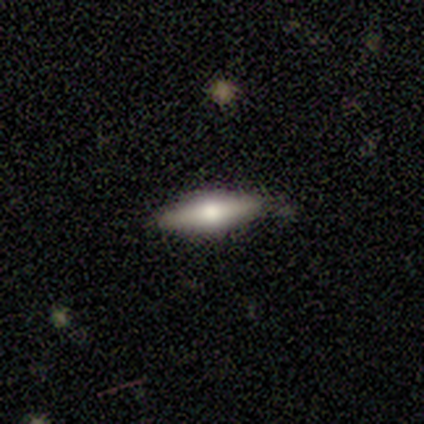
This is likely a smooth galaxy (60%). How rounded: likely cigar-shaped (67%). Merging: likely none (60%).